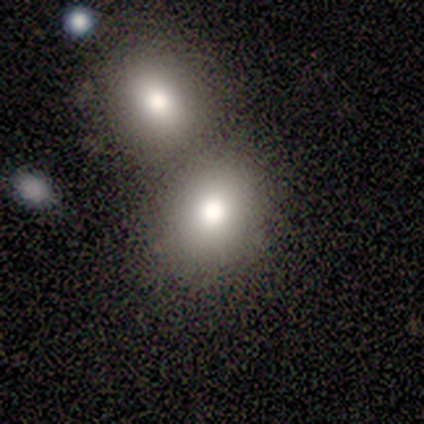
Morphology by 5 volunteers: Volunteers were most divided on "how rounded" (2-way tie): round: 50%, in between: 50%, cigar-shaped: 0%. Remaining: smooth or featured — smooth (80%); merging — merger (40%).